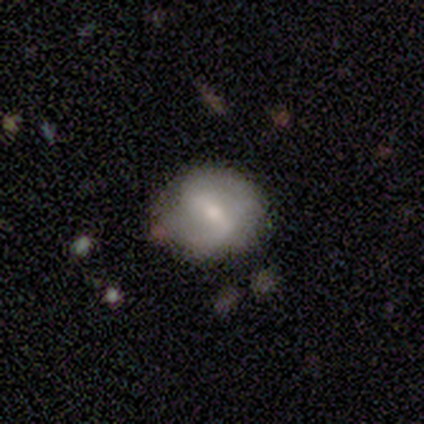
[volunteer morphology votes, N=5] featured or disk 80%, smooth 20%, star or artifact 0%. Down the decision tree: edge-on disk — yes (50%, tied with no); edge-on bulge — rounded (100%); merging — minor disturbance (60%).